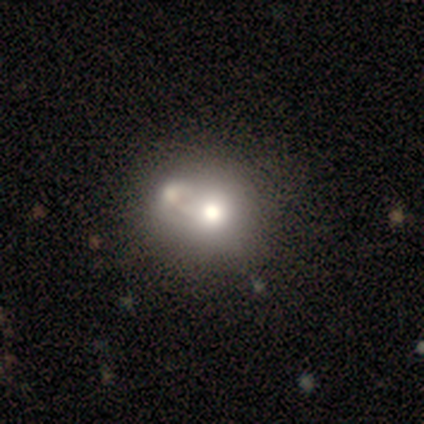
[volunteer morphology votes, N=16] A smooth galaxy with no disk features (69%) that is round (82%). Merging: merger (60%).